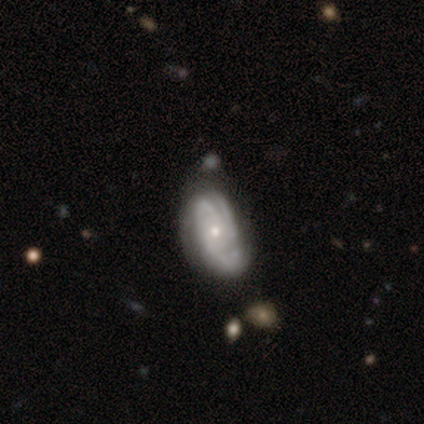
A featured or disk galaxy (86%) with no bar (80%), 3 (64%) tight (60%) spiral arms (91%) and a small central bulge (54%).

Vote fractions:
- Smooth or featured? featured or disk: 86% / smooth: 12% / star or artifact: 2%
- Edge-on disk? no: 96% / yes: 4%
- Bar? no: 80% / weak: 20% / strong: 0%
- Spiral arms? yes: 91% / no: 9%
- Spiral winding? tight: 60% / medium: 31% / loose: 10%
- Spiral arm count? 3: 64% / 2: 14% / can't tell: 12% / 1: 7% / 4: 2% / more than 4: 0%
- Bulge size? small: 54% / moderate: 43% / dominant: 2% / large: 0% / none: 0%
- Merging? none: 51% / minor disturbance: 35% / major disturbance: 9% / merger: 5%